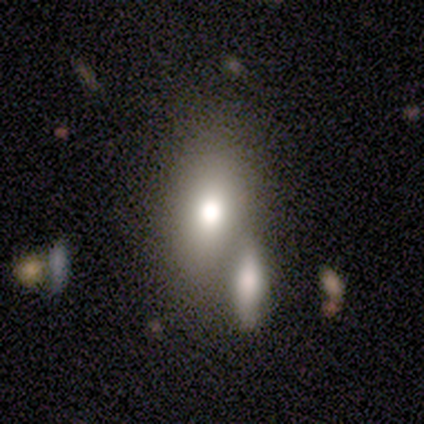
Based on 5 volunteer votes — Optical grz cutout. It shows a smooth galaxy with no disk features (60%) that is in between round and cigar-shaped (100%). Merging: none (100%).